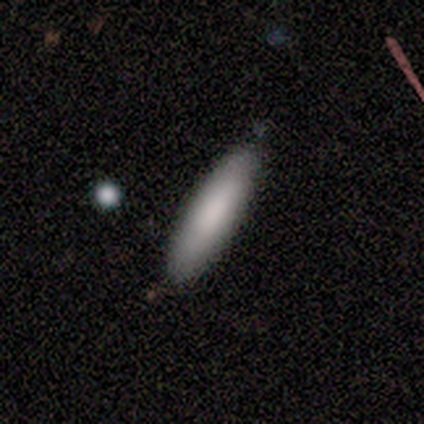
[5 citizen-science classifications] smooth-or-featured: smooth: 60% | featured or disk: 40% | star or artifact: 0%
  how-rounded: cigar-shaped: 100% | round: 0% | in between: 0%
  merging: none: 100% | minor disturbance: 0% | major disturbance: 0% | merger: 0%